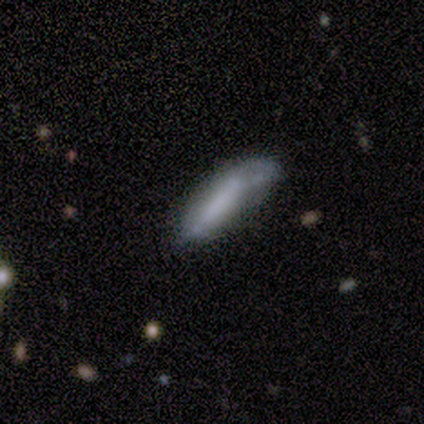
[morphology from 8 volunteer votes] A smooth galaxy with no disk features (88%) that is cigar-shaped (71%). Merging: minor disturbance (38%, tied with major disturbance).